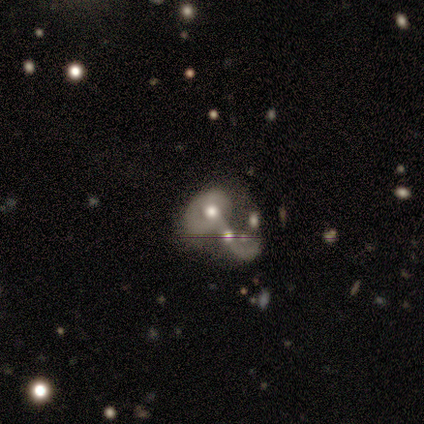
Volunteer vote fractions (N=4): smooth-or-featured: smooth: 50% (tied) | featured or disk: 50% (tied) | star or artifact: 0%
  how-rounded: in between: 100% | round: 0% | cigar-shaped: 0%
  merging: merger: 75% | major disturbance: 25% | none: 0% | minor disturbance: 0%